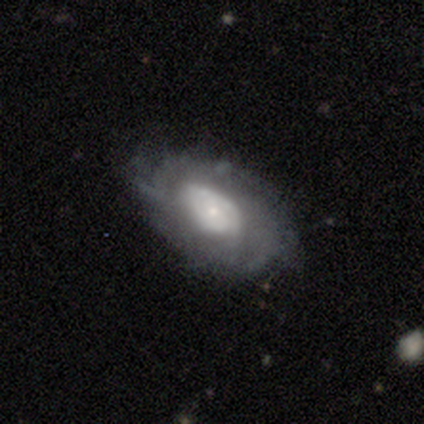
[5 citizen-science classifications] Morphology: type=featured or disk (80%); edge-on=no (75%); bar=no (100%); spiral arms=no (100%); bulge=large (67%); merging=minor disturbance (40%, tied with major disturbance).